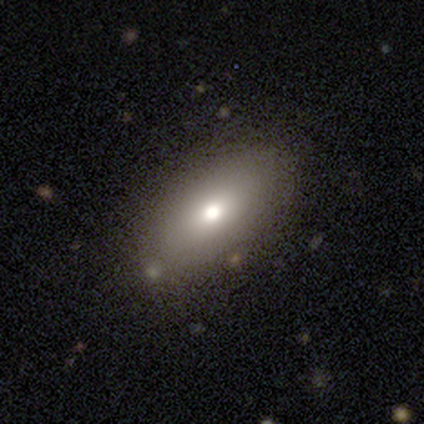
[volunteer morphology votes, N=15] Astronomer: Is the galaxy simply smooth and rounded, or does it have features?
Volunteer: smooth — 80%.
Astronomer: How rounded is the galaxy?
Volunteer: in between — 75%.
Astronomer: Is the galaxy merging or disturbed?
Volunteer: none — 93%.